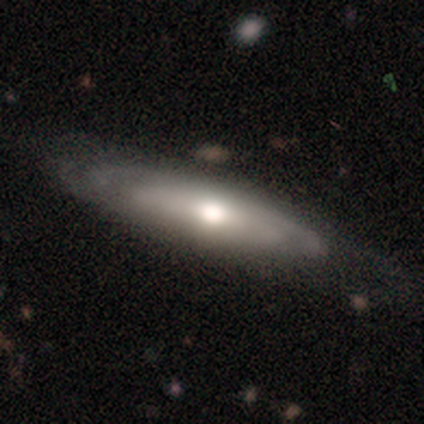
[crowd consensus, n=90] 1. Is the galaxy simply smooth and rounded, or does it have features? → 69% featured or disk, 29% smooth, 2% star or artifact.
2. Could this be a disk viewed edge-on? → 58% no, 42% yes.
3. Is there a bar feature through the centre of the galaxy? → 83% no, 8% strong, 8% weak.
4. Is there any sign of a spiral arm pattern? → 56% no, 44% yes.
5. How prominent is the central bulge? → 67% moderate, 28% large, 6% small, 0% dominant, 0% none.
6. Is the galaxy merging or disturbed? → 74% none, 16% minor disturbance, 10% major disturbance, 0% merger.